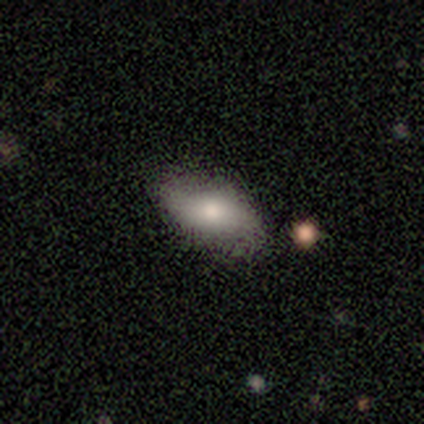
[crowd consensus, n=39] A smooth galaxy with no disk features (67%) that is in between round and cigar-shaped (92%).

Vote fractions:
- Smooth or featured? smooth: 67% / featured or disk: 26% / star or artifact: 8%
- How rounded? in between: 92% / round: 4% / cigar-shaped: 4%
- Merging? none: 75% / minor disturbance: 22% / major disturbance: 3% / merger: 0%